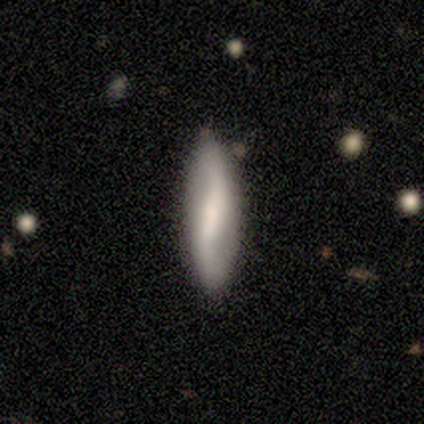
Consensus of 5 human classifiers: smooth 60%, featured or disk 40%, star or artifact 0%. Down the decision tree: how rounded — cigar-shaped (67%); merging — none (80%).